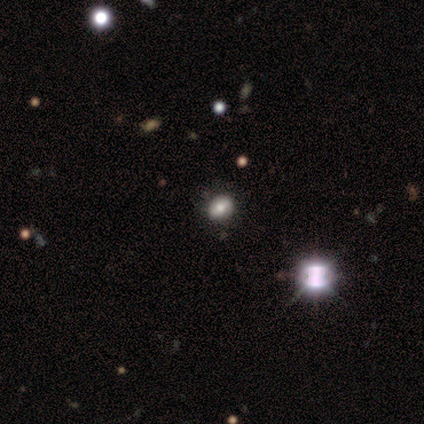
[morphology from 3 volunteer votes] type=star or artifact (67%).